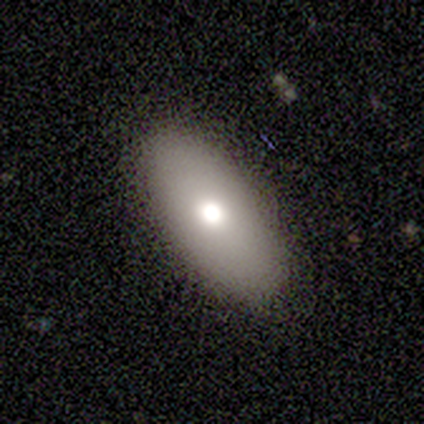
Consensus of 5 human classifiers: This is likely a smooth galaxy (60%). How rounded: likely in between (67%). Merging: likely none (75%).